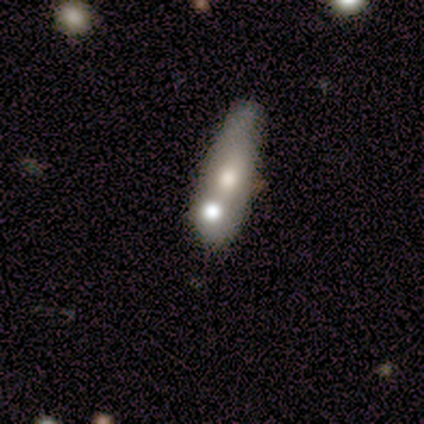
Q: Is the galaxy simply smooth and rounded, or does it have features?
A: smooth — 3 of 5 (60%).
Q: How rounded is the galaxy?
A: cigar-shaped — 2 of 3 (67%).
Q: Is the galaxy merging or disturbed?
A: merger — 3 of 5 (60%).